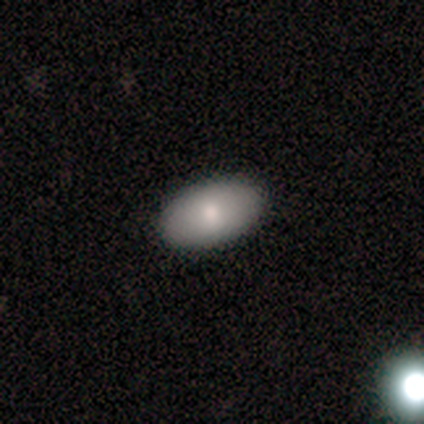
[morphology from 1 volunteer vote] Overall: smooth (100%). How rounded: in between (100%). Merging: none (100%).